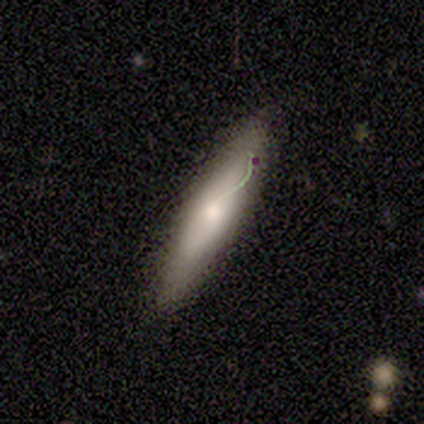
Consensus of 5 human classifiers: A featured or disk galaxy (60%) viewed edge-on (67%) with a rounded central bulge (100%).

Vote fractions:
- Smooth or featured? featured or disk: 60% / smooth: 40% / star or artifact: 0%
- Edge-on disk? yes: 67% / no: 33%
- Edge-on bulge? rounded: 100% / boxy: 0% / none: 0%
- Merging? none: 60% / major disturbance: 20% / merger: 20% / minor disturbance: 0%